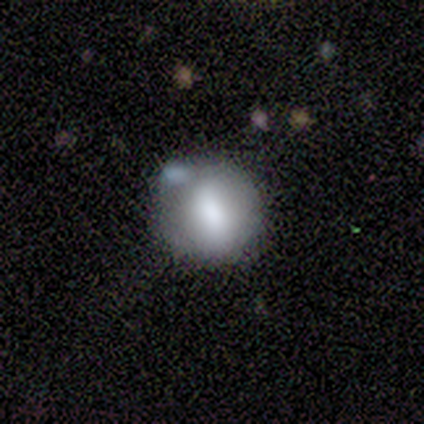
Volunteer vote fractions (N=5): A smooth galaxy with no disk features (40%, tied with featured or disk) that is round (50%, tied with in between).

Vote fractions:
- Smooth or featured? smooth: 40% (tied) / featured or disk: 40% (tied) / star or artifact: 20%
- How rounded? round: 50% (tied) / in between: 50% (tied) / cigar-shaped: 0%
- Merging? minor disturbance: 50% / none: 25% / major disturbance: 25% / merger: 0%